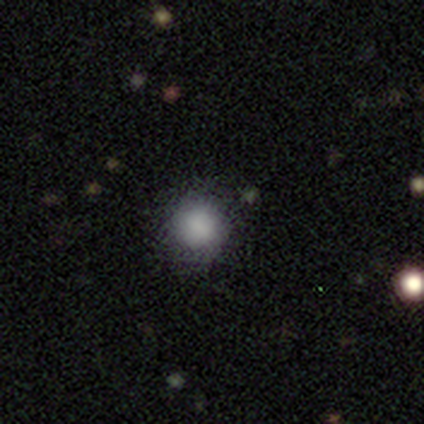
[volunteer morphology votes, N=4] Smooth or featured? smooth (100%)
How rounded? round (100%)
Merging? none (75%)